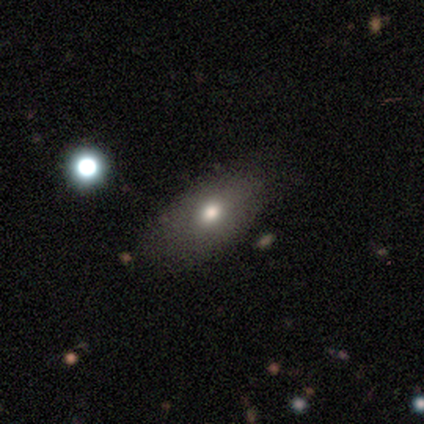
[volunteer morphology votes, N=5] Volunteers were most divided on "smooth or featured": smooth: 60%, featured or disk: 20%, star or artifact: 20%. More confident: how rounded — in between (100%); merging — none (75%).